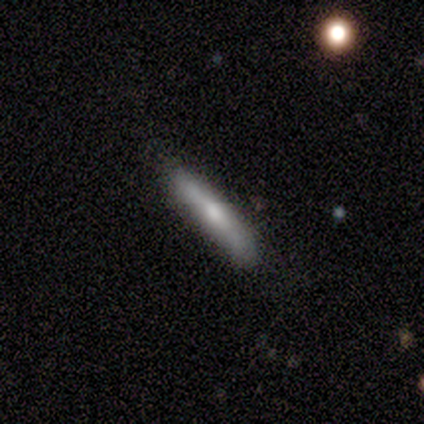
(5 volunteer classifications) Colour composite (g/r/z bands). It shows a smooth galaxy with no disk features (60%) that is cigar-shaped (100%). Merging: none (100%).